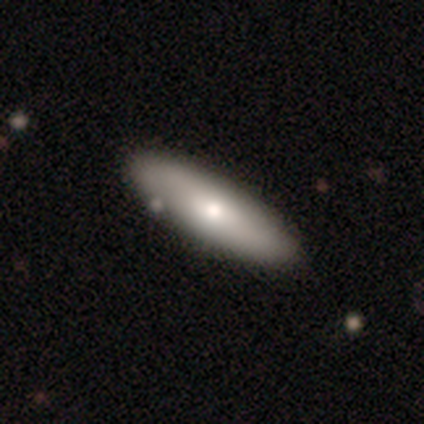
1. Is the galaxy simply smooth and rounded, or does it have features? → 75% smooth, 25% featured or disk, 0% star or artifact.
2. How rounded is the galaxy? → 100% in between, 0% round, 0% cigar-shaped.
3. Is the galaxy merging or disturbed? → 75% none, 25% minor disturbance, 0% major disturbance, 0% merger.